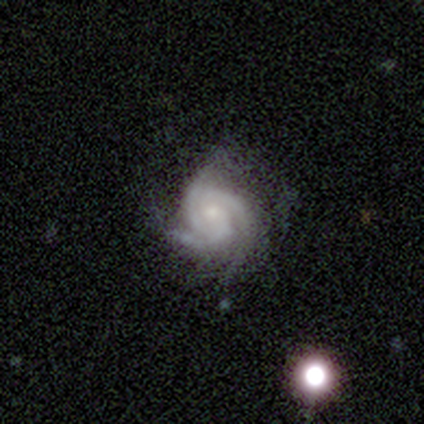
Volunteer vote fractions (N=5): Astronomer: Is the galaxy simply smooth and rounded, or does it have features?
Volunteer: featured or disk — 80%.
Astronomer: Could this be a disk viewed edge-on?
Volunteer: no — 100%.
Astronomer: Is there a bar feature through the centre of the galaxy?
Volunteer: no — 75%.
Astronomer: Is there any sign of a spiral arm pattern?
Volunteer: yes — 100%.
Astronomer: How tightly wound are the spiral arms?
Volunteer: tight — 75%.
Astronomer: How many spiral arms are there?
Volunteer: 3 — 100%.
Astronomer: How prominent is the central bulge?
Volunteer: small — 75%.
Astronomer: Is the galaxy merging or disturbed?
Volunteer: none — 100%.